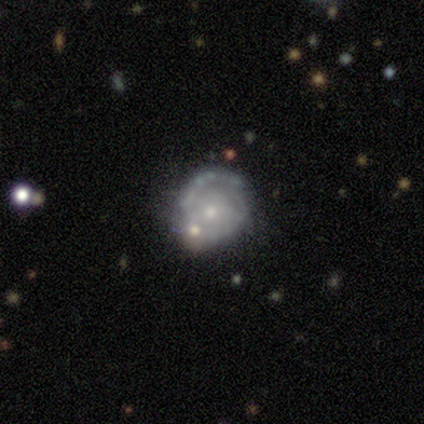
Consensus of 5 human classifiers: This is clearly a featured or disk galaxy (80%). It is clearly not viewed edge-on (100%). Bar: clearly no (100%). Spiral arm pattern: possibly yes (50%, tied with no). Spiral arm count: possibly 1 (50%, tied with 2). Spiral winding: clearly tight (100%). Central bulge: possibly small (50%, tied with none). Merging: likely minor disturbance (60%).